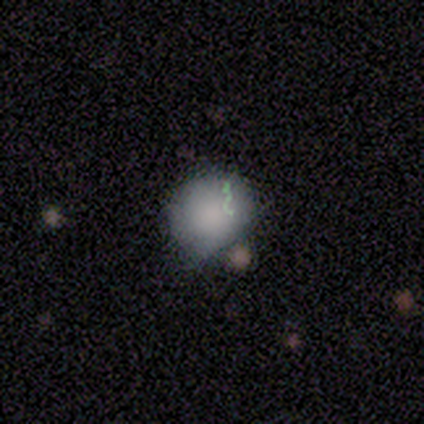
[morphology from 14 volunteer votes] Overall: smooth (71%). How rounded: round (60%; in between 40%). Merging: none (45%; major disturbance 27%).